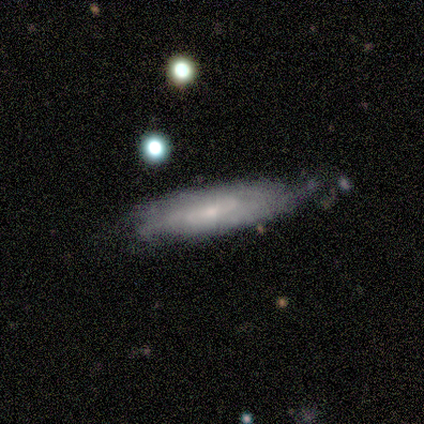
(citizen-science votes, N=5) Volunteers were most divided on "smooth or featured" (2-way tie): smooth: 40%, featured or disk: 40%, star or artifact: 20%. More confident: how rounded — cigar-shaped (100%); merging — minor disturbance (50%).